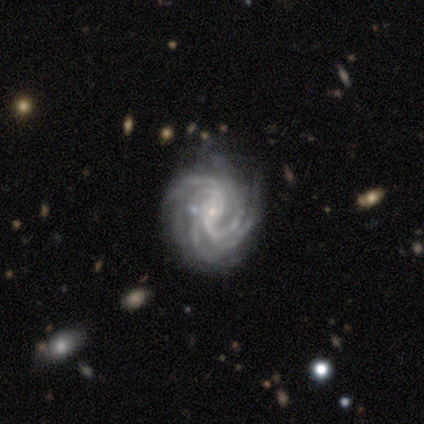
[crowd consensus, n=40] Morphology: type=featured or disk (95%); edge-on=no (97%); bar=no (41%); spiral arms=yes (97%); winding=tight (69%); arm count=more than 4 (44%); bulge=small (92%); merging=none (72%).